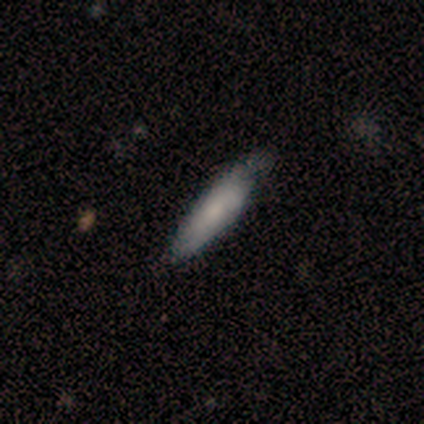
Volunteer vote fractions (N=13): Smooth or featured?
  - smooth: 62% *
  - featured or disk: 31%
  - star or artifact: 8%
How rounded?
  - cigar-shaped: 75% *
  - in between: 25%
  - round: 0%
Merging?
  - none: 75% *
  - minor disturbance: 25%
  - major disturbance: 0%
  - merger: 0%